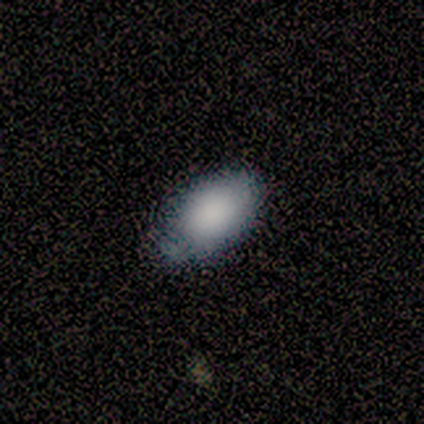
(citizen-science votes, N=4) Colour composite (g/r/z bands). It shows a smooth galaxy with no disk features (75%) that is in between round and cigar-shaped (67%). Merging: none (50%).